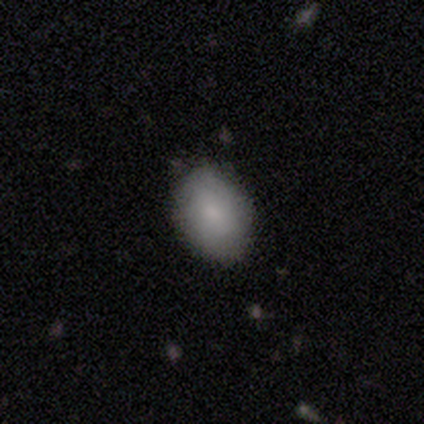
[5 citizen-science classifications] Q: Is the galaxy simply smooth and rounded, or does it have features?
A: smooth — 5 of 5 (100%).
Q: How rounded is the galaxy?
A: in between — 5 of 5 (100%).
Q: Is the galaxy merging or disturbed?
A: none — 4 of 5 (80%).